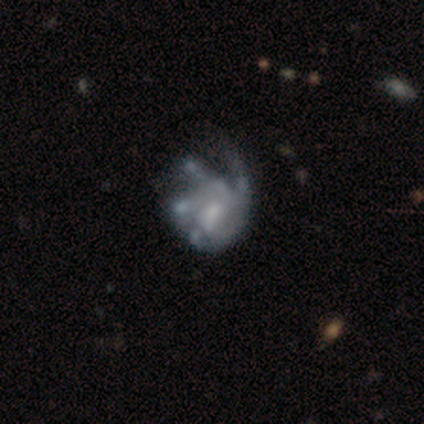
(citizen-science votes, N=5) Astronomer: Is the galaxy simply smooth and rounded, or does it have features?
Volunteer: featured or disk — 60%.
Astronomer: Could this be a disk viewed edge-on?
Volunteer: no — 100%.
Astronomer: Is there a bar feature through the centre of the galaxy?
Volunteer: no — 100%.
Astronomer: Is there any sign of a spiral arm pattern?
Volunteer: yes — 67%.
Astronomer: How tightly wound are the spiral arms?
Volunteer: tight — 50%, tied with medium at 50%.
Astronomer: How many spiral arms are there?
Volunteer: can't tell — 100%.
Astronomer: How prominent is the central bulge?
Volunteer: none — 67%.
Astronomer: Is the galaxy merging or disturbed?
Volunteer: major disturbance — 75%.